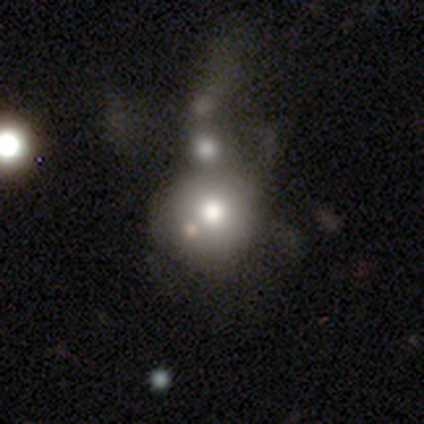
Smooth or featured?
  - smooth: 74% *
  - featured or disk: 15%
  - star or artifact: 12%
How rounded?
  - round: 92% *
  - in between: 8%
  - cigar-shaped: 0%
Merging?
  - merger: 50% *
  - none: 0%
  - minor disturbance: 0%
  - major disturbance: 0%